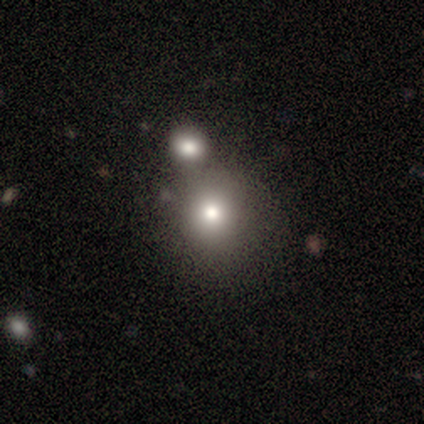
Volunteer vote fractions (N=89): Smooth or featured?
  - smooth: 70% *
  - featured or disk: 17%
  - star or artifact: 13%
How rounded?
  - round: 87% *
  - in between: 11%
  - cigar-shaped: 2%
Merging?
  - none: 64% *
  - merger: 29%
  - minor disturbance: 6%
  - major disturbance: 1%